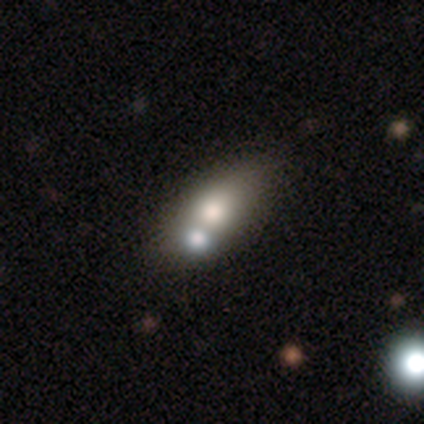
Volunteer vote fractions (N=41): Smooth or featured?
  - smooth: 68% *
  - featured or disk: 27%
  - star or artifact: 5%
How rounded?
  - in between: 93% *
  - round: 4%
  - cigar-shaped: 4%
Merging?
  - none: 41% *
  - merger: 36%
  - minor disturbance: 15%
  - major disturbance: 0%